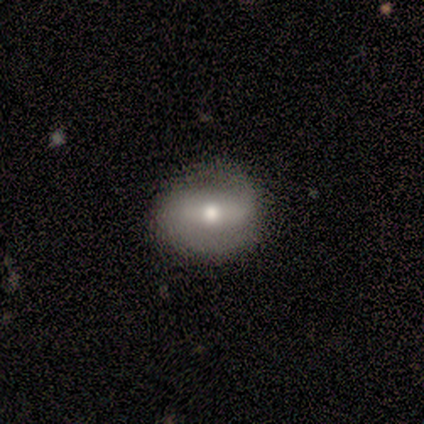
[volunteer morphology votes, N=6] This appears to be a smooth galaxy with no disk features (50%) that is round (67%). Merging: none (100%).